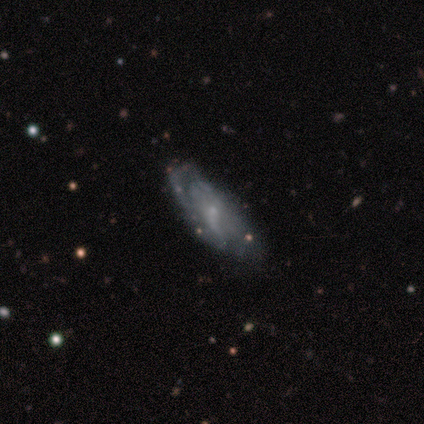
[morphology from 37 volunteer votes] Volunteers were most divided on "bar" (2-way tie): weak: 46%, no: 46%, strong: 8%. Remaining: edge-on disk — no (90%); bulge size — small (88%); spiral arms — yes (81%); smooth or featured — featured or disk (78%); merging — none (66%); spiral arm count — can't tell (52%); spiral winding — loose (48%).